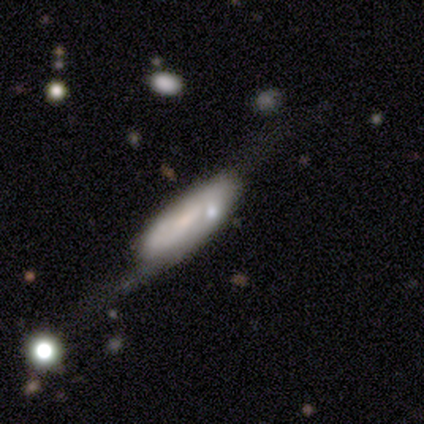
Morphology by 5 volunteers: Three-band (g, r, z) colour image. It shows a featured or disk galaxy (60%) viewed edge-on (67%) with no central bulge (50%, tied with rounded). Merging: none (50%, tied with major disturbance).